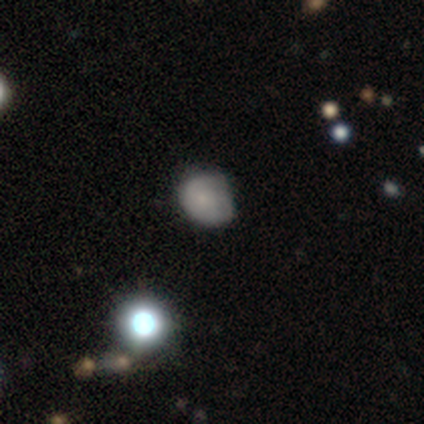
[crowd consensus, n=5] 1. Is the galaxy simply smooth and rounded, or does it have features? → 80% smooth, 20% featured or disk, 0% star or artifact.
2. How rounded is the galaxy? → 100% in between, 0% round, 0% cigar-shaped.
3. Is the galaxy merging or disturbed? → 60% none, 40% minor disturbance, 0% major disturbance, 0% merger.